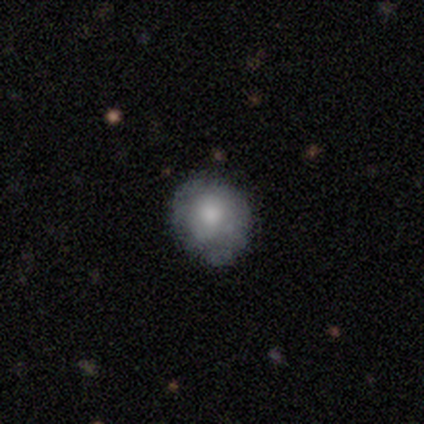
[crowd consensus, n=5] Smooth or featured?
  - smooth: 60% *
  - star or artifact: 40%
  - featured or disk: 0%
How rounded?
  - round: 100% *
  - in between: 0%
  - cigar-shaped: 0%
Merging?
  - none: 67% *
  - minor disturbance: 33%
  - major disturbance: 0%
  - merger: 0%